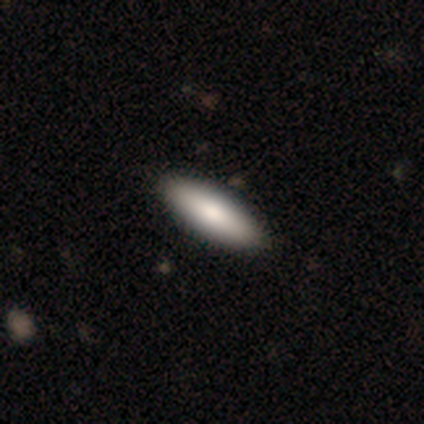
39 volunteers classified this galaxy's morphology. smooth-or-featured: smooth: 85% | featured or disk: 15% | star or artifact: 0%
  how-rounded: in between: 55% | cigar-shaped: 45% | round: 0%
  merging: none: 64% | minor disturbance: 3% | merger: 3% | major disturbance: 0%